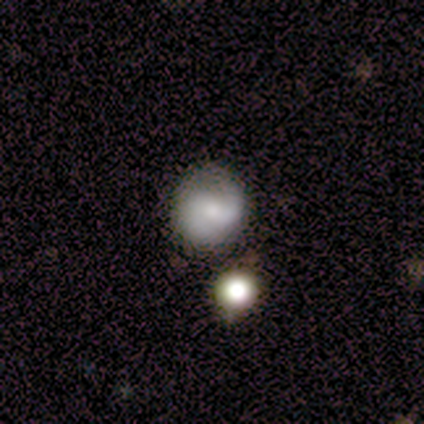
Volunteers were most divided on "merging": none: 53%, minor disturbance: 40%, merger: 7%, major disturbance: 0%. More confident: edge-on disk — no (100%); spiral arms — yes (100%); spiral arm count — 2 (100%); smooth or featured — featured or disk (67%); bar — weak (60%); bulge size — small (60%); spiral winding — medium (50%).